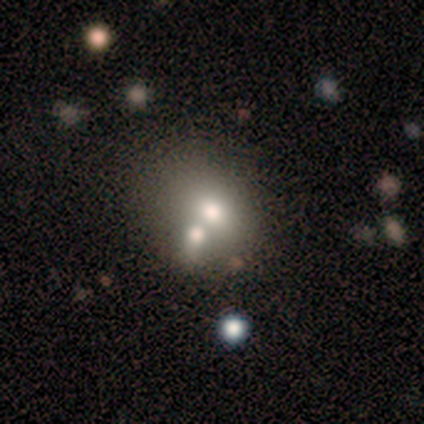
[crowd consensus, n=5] Smooth or featured: smooth — 60% (featured or disk — 20%)
How rounded: in between — 67% (round — 33%)
Merging: none — 50% (tied with merger — 50%)